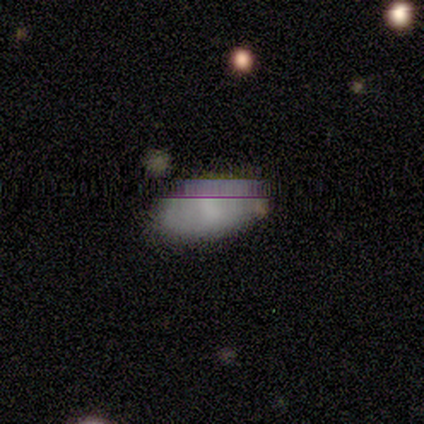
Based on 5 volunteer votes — Volunteers were most divided on "smooth or featured" (2-way tie): smooth: 40%, star or artifact: 40%, featured or disk: 20%. More confident: how rounded — in between (100%); merging — none (100%).